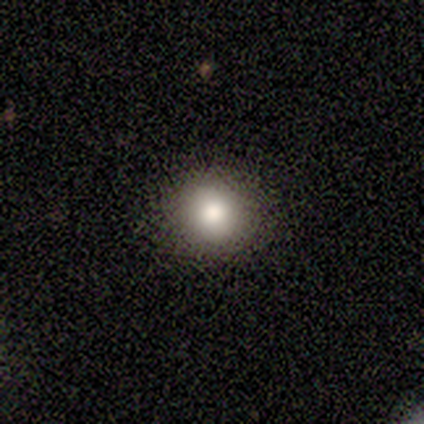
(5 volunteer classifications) smooth-or-featured: smooth: 80% | featured or disk: 20% | star or artifact: 0%
  how-rounded: round: 100% | in between: 0% | cigar-shaped: 0%
  merging: none: 100% | minor disturbance: 0% | major disturbance: 0% | merger: 0%